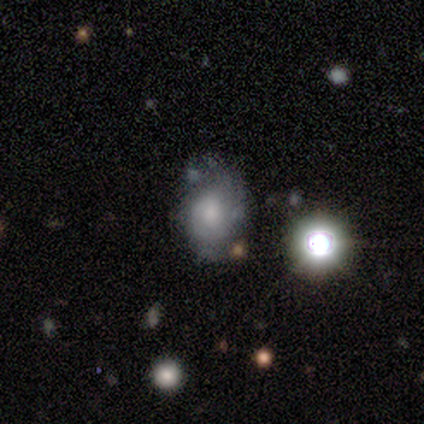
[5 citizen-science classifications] Overall: smooth (40%, tied with featured or disk). How rounded: in between (50%, tied with cigar-shaped). Merging: none (50%, tied with major disturbance).